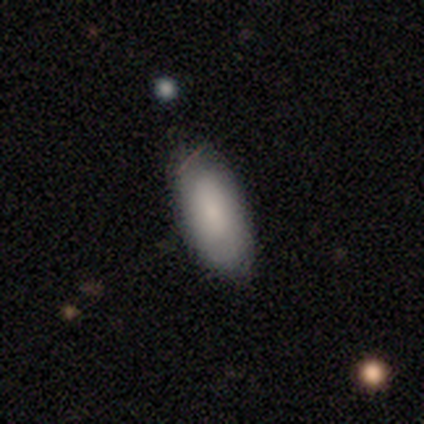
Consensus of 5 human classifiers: smooth_or_featured: smooth (p=0.60) [alt: featured or disk p=0.20]
how_rounded: in between (p=1.00)
merging: none (p=0.75) [alt: major disturbance p=0.25]